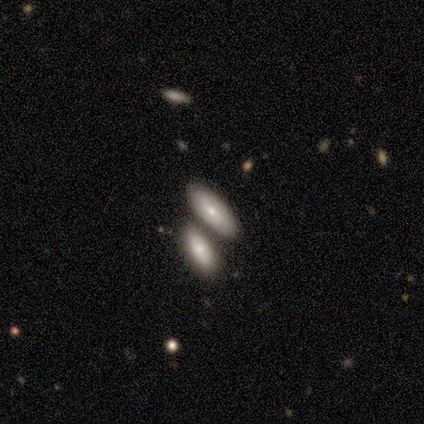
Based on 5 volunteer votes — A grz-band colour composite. It shows a smooth galaxy with no disk features (60%) that is cigar-shaped (67%). Merging: minor disturbance (50%).